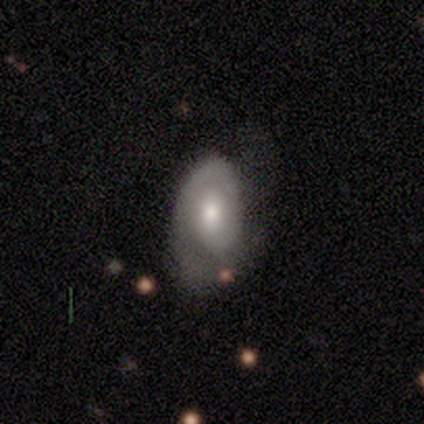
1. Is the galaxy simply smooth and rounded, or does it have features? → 75% featured or disk, 25% smooth, 0% star or artifact.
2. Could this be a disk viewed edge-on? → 100% no, 0% yes.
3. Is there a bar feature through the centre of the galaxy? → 67% weak, 33% no, 0% strong.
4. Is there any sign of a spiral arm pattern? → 67% yes, 33% no.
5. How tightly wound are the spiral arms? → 50% tight (tied), 50% medium (tied), 0% loose.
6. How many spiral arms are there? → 100% 1, 0% 2, 0% 3, 0% 4, 0% more than 4, 0% can't tell.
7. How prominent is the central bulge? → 67% moderate, 33% small, 0% dominant, 0% large, 0% none.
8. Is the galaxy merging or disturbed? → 50% none, 25% minor disturbance, 25% major disturbance, 0% merger.